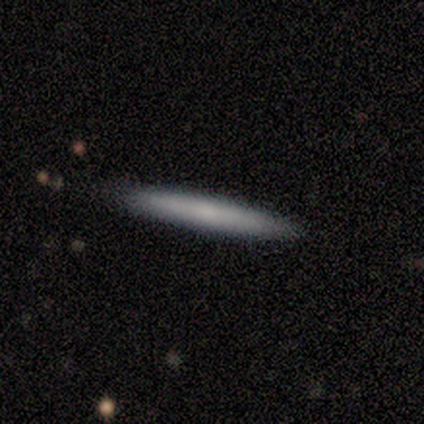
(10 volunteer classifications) Q: Smooth or featured?
A: smooth (60%); runner-up: featured or disk (40%)
Q: How rounded?
A: cigar-shaped (100%)
Q: Merging?
A: none (100%)